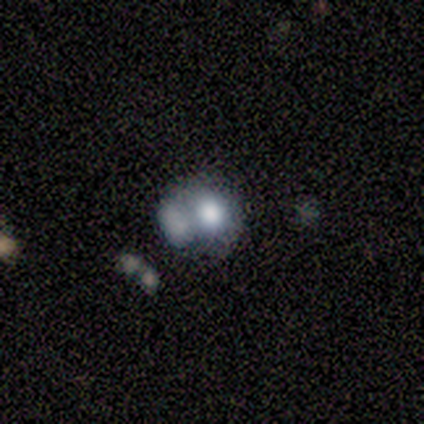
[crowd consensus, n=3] Smooth or featured: smooth — 33% (tied with featured or disk — 33%; star or artifact — 33%)
How rounded: round — 100%
Merging: minor disturbance — 50% (tied with merger — 50%)